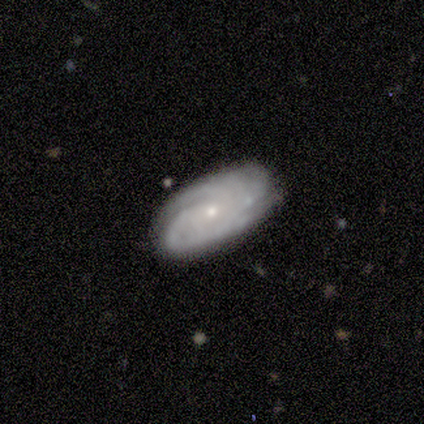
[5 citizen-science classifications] A featured or disk galaxy (60%) with no bar (100%), tight (67%) spiral arms (100%) and a moderate central bulge (67%). Merging: none (80%).